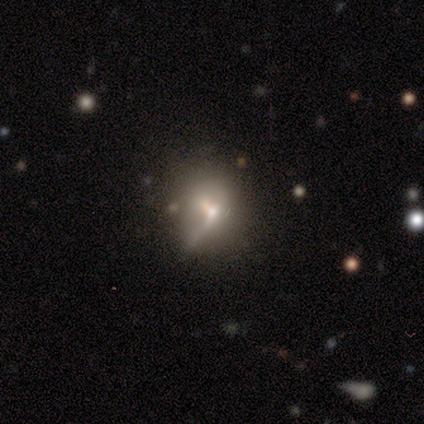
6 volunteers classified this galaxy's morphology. Overall: smooth (50%, tied with featured or disk). How rounded: round (67%; in between 33%). Merging: none (50%; minor disturbance 17%).